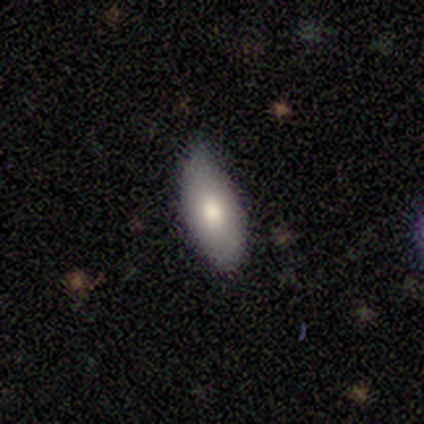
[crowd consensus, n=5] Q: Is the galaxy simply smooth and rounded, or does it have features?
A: smooth — 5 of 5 (100%).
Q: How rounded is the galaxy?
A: in between — 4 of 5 (80%).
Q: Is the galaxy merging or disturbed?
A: none — 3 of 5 (60%).